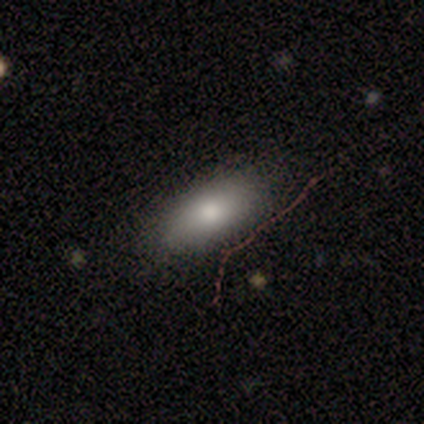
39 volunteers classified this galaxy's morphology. A smooth galaxy with no disk features (79%) that is in between round and cigar-shaped (90%). Merging: none (53%).